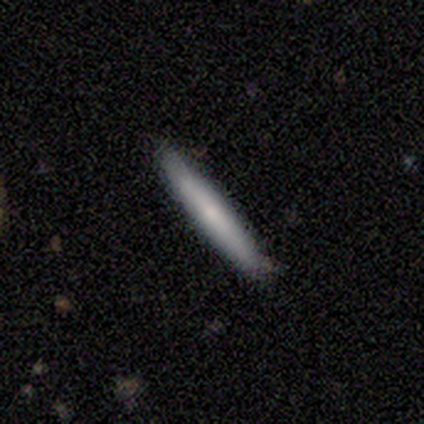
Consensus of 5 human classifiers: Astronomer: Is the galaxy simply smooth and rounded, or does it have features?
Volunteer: smooth — 100%.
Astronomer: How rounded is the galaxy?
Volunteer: cigar-shaped — 80%.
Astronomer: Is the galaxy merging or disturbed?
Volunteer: none — 80%.